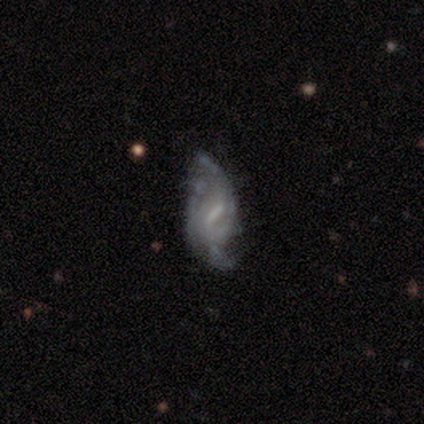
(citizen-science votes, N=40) Q: Smooth or featured?
A: featured or disk (92%); runner-up: smooth (5%)
Q: Edge-on disk?
A: no (97%); runner-up: yes (3%)
Q: Bar?
A: weak (75%); runner-up: no (19%)
Q: Spiral arms?
A: yes (92%); runner-up: no (8%)
Q: Spiral winding?
A: loose (67%); runner-up: tight (18%)
Q: Spiral arm count?
A: 2 (58%); runner-up: can't tell (36%)
Q: Bulge size?
A: none (44%); runner-up: small (36%)
Q: Merging?
A: none (54%); runner-up: minor disturbance (28%)